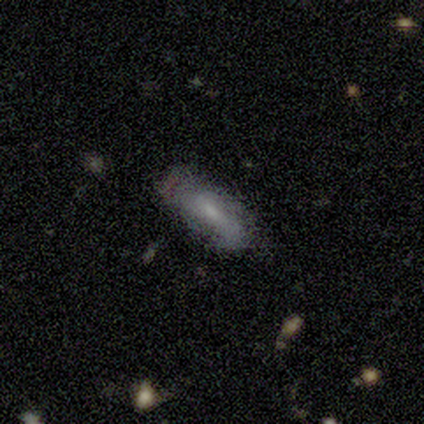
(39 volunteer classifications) This is likely a smooth galaxy (62%). How rounded: likely in between (62%). Merging: likely none (66%).